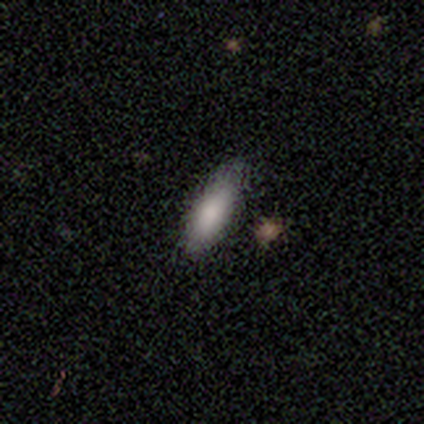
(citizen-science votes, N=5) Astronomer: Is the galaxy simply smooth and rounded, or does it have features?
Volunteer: smooth — 100%.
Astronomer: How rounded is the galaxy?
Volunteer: in between — 80%.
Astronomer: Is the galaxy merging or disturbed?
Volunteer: none — 80%.